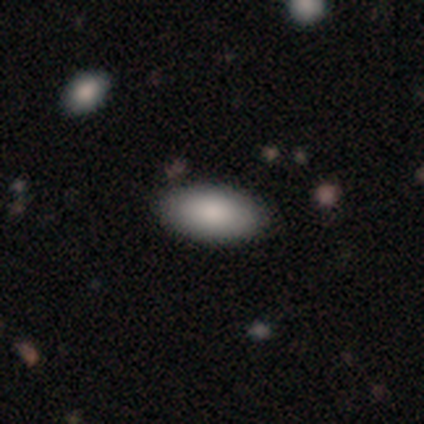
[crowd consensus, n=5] Smooth or featured?
  - smooth: 100% *
  - featured or disk: 0%
  - star or artifact: 0%
How rounded?
  - in between: 100% *
  - round: 0%
  - cigar-shaped: 0%
Merging?
  - none: 80% *
  - minor disturbance: 20%
  - major disturbance: 0%
  - merger: 0%